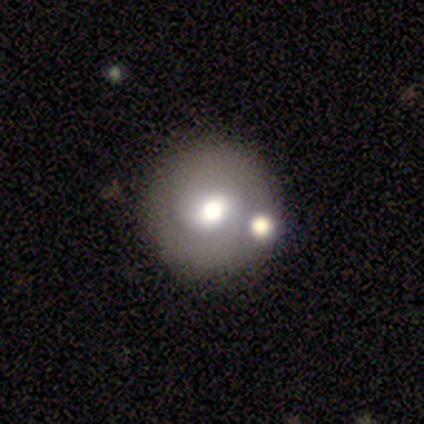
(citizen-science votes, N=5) Smooth or featured? smooth (80%)
How rounded? round (100%)
Merging? none (100%)